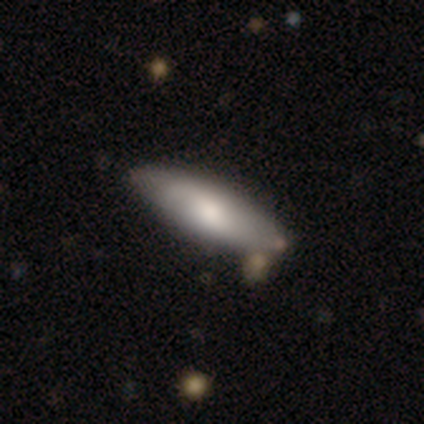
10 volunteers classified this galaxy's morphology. Smooth or featured? 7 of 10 (70%) said smooth. How rounded? 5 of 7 (71%) said cigar-shaped. Merging? 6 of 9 (67%) said none.